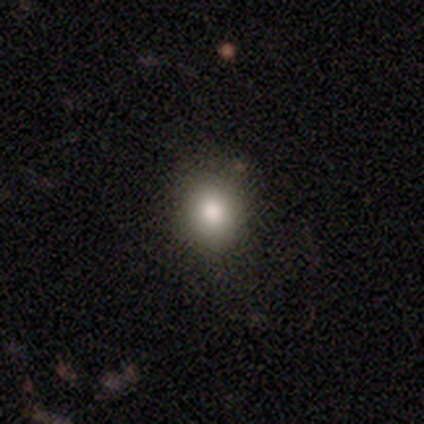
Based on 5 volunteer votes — Morphology: type=smooth (100%); roundness=round (80%); merging=none (100%).